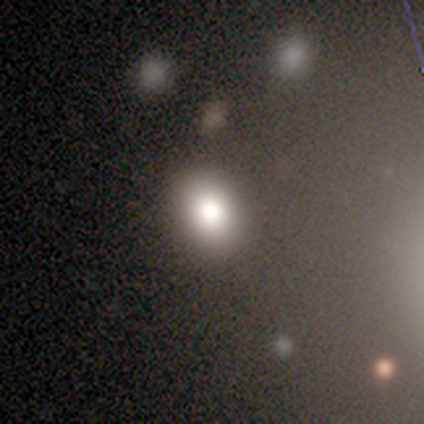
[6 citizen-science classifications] This is likely a smooth galaxy (67%). How rounded: likely in between (75%). Merging: clearly none (100%).